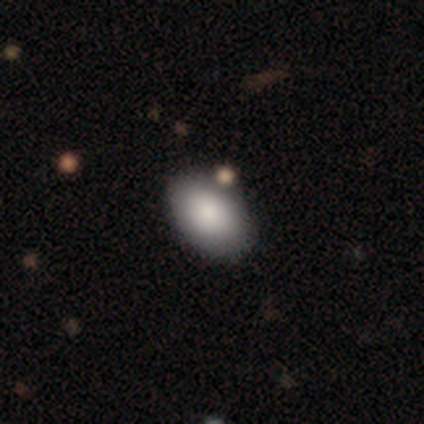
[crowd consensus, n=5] Smooth or featured? 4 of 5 (80%) said smooth. How rounded? 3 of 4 (75%) said in between. Merging? 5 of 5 (100%) said none.